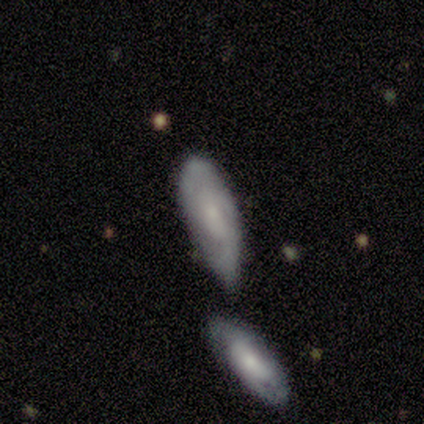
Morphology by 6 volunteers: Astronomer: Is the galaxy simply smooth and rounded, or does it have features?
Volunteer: featured or disk — 67%.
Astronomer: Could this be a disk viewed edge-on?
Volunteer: no — 75%.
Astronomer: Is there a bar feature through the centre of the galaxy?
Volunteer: weak — 67%.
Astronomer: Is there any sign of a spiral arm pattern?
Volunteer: no — 67%.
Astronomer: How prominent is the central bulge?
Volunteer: moderate — 67%.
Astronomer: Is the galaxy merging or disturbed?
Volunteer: none — 33%, tied with major disturbance at 33%.